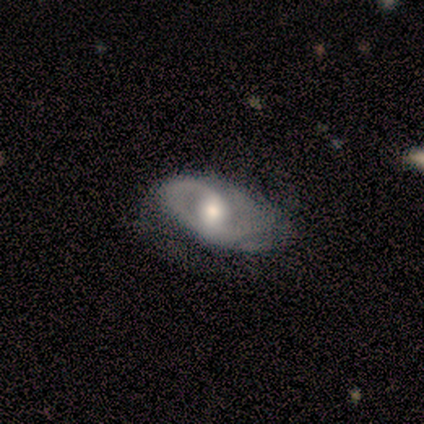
Volunteers were most divided on "spiral arms" (2-way tie): yes: 50%, no: 50%; "spiral winding" (2-way tie): medium: 50%, loose: 50%, tight: 0%. More confident: edge-on disk — no (100%); spiral arm count — 2 (100%); smooth or featured — featured or disk (80%); bulge size — moderate (75%); merging — minor disturbance (60%); bar — no (50%).